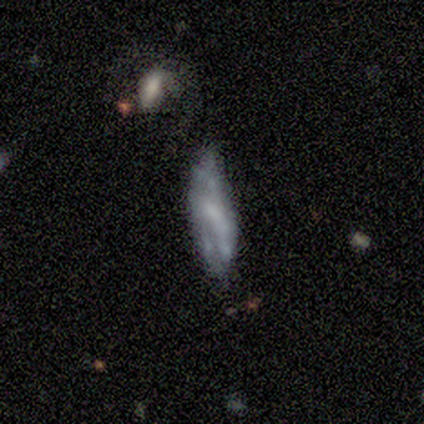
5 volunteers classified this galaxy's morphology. A smooth galaxy with no disk features (60%) that is in between round and cigar-shaped (67%).

Vote fractions:
- Smooth or featured? smooth: 60% / featured or disk: 20% / star or artifact: 20%
- How rounded? in between: 67% / cigar-shaped: 33% / round: 0%
- Merging? none: 50% / minor disturbance: 25% / major disturbance: 25% / merger: 0%